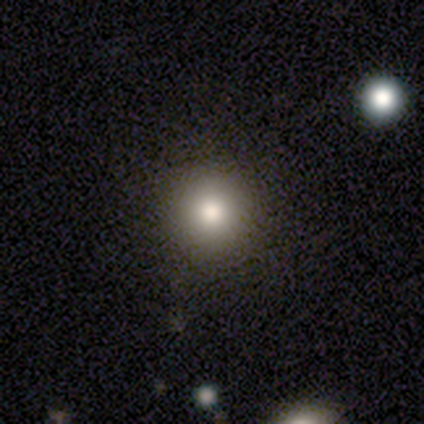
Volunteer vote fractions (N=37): This appears to be a smooth galaxy with no disk features (89%) that is round (97%). Merging: none (91%).